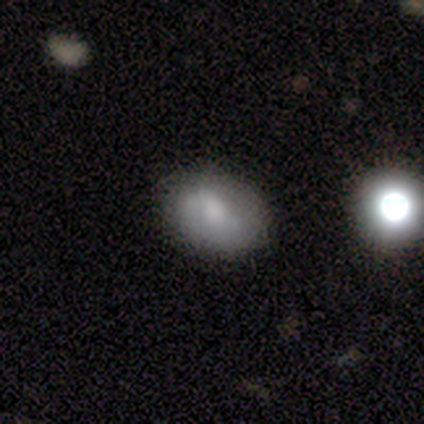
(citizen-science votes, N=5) A smooth galaxy with no disk features (60%) that is in between round and cigar-shaped (100%). Merging: none (100%).